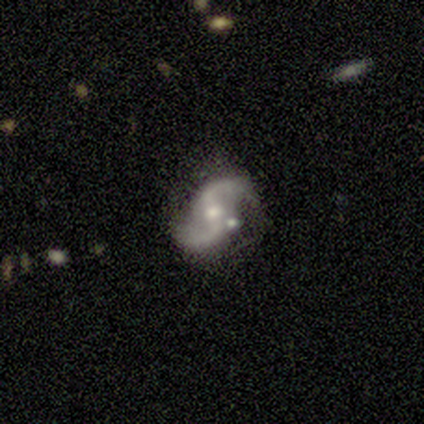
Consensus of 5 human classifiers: Morphology: type=featured or disk (100%); edge-on=no (80%); bar=strong (50%); spiral arms=yes (100%); winding=loose (75%); arm count=2 (100%); bulge=moderate (50%, tied with small); merging=none (60%).